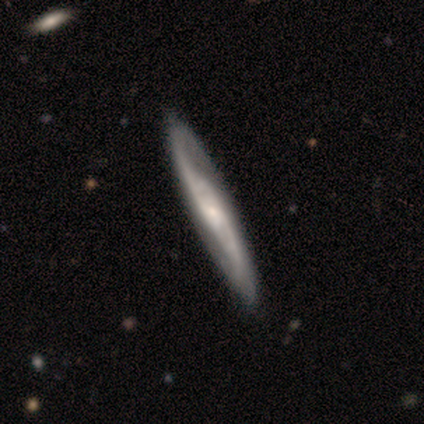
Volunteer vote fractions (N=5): Overall: featured or disk (80%). Edge-on disk: no (100%). Bar: no (50%; strong 25%). Spiral arms: yes (100%). Spiral arm count: 2 (100%). Spiral winding: medium (50%, tied with loose). Bulge size: small (75%). Merging: none (40%, tied with minor disturbance).